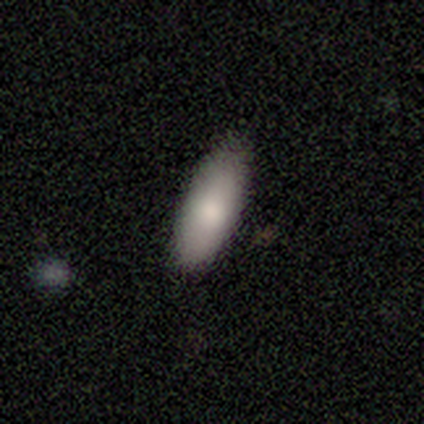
This is likely a smooth galaxy (75%). How rounded: marginally round (33%, tied with in between and cigar-shaped). Merging: likely none (75%).